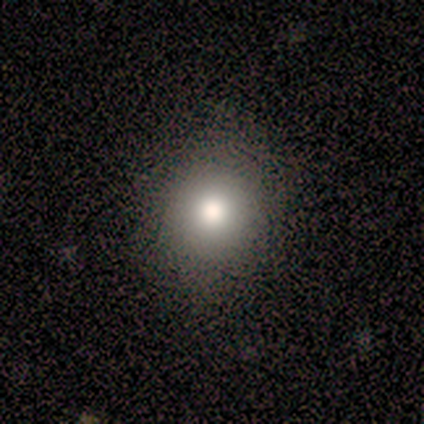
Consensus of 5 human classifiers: Morphology: type=smooth (80%); roundness=round (75%); merging=none (60%).